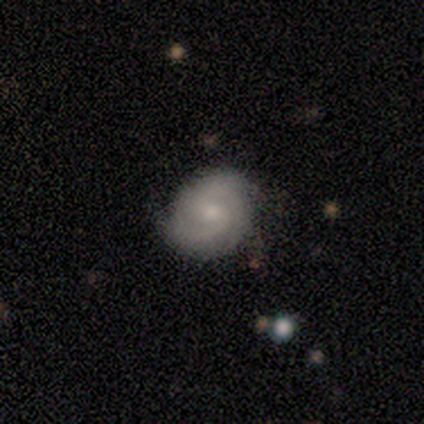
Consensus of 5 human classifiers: featured or disk 100%, smooth 0%, star or artifact 0%. Down the decision tree: edge-on disk — no (100%); bar — weak (60%); spiral arms — yes (100%); spiral arm count — 2 (80%); spiral winding — tight (40%, tied with loose); bulge size — small (60%); merging — none (100%).